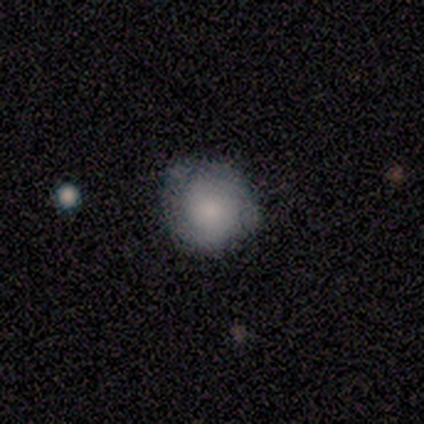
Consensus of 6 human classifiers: Q: Smooth or featured?
A: smooth (100%)
Q: How rounded?
A: round (100%)
Q: Merging?
A: none (50%); runner-up: minor disturbance (33%)